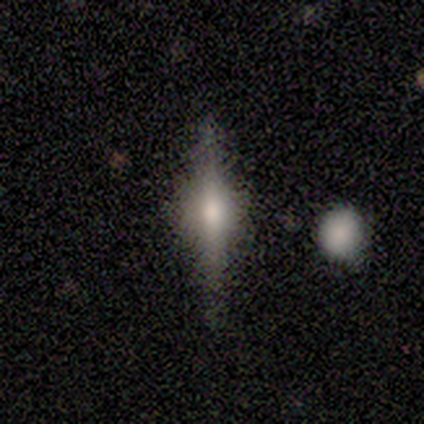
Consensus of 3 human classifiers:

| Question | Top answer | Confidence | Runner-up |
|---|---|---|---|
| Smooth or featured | featured or disk | 67% | smooth (33%) |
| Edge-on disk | yes | 100% | — |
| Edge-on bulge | rounded | 100% | — |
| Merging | none | 100% | — |